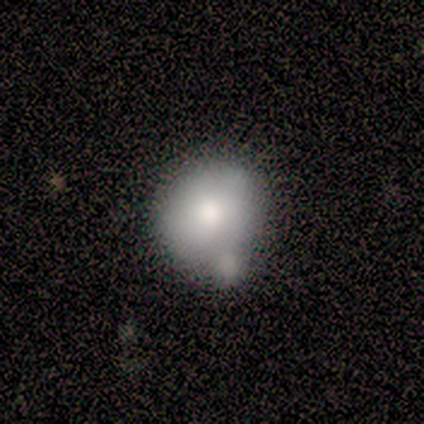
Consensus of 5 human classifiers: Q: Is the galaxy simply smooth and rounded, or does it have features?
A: smooth — 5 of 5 (100%).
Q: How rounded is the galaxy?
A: round — 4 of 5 (80%).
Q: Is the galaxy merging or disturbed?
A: none — 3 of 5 (60%).